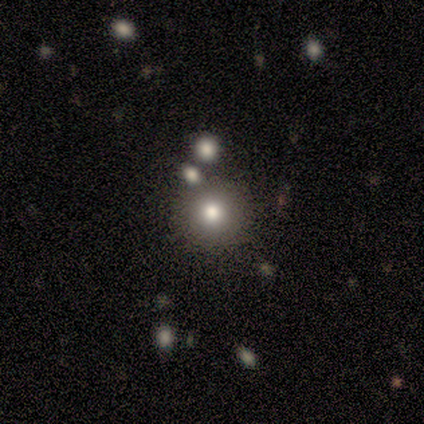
Smooth or featured? 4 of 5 (80%) said smooth. How rounded? 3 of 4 (75%) said round. Merging? 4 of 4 (100%) said none.